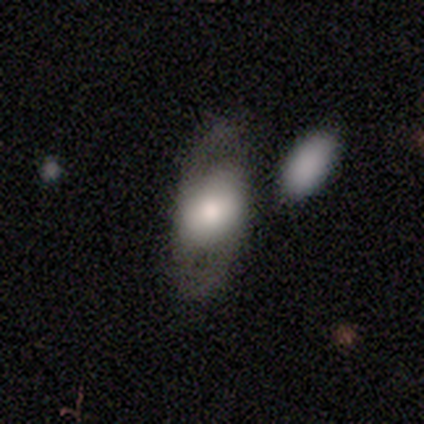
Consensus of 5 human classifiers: A smooth galaxy with no disk features (80%) that is in between round and cigar-shaped (100%).

Vote fractions:
- Smooth or featured? smooth: 80% / featured or disk: 20% / star or artifact: 0%
- How rounded? in between: 100% / round: 0% / cigar-shaped: 0%
- Merging? none: 80% / major disturbance: 20% / minor disturbance: 0% / merger: 0%